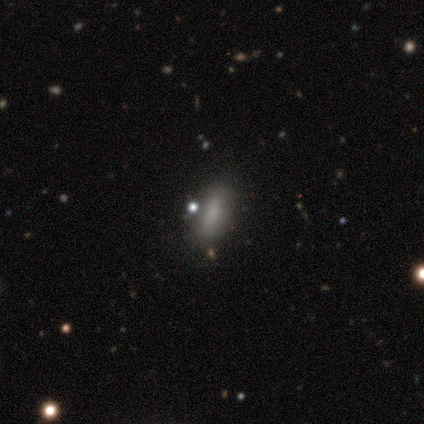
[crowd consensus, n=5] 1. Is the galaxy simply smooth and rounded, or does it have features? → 80% smooth, 20% star or artifact, 0% featured or disk.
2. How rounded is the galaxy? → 75% in between, 25% cigar-shaped, 0% round.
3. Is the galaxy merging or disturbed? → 75% none, 25% minor disturbance, 0% major disturbance, 0% merger.